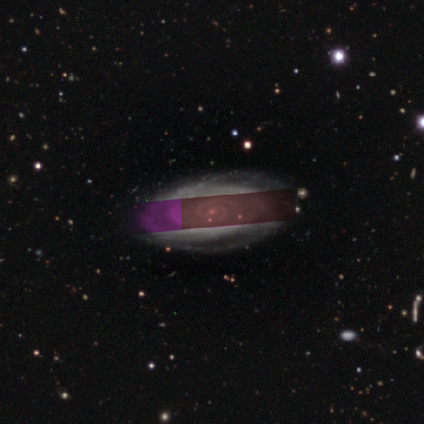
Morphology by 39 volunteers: Smooth or featured? 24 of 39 (62%) said featured or disk. Edge-on disk? 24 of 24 (100%) said no. Bar? 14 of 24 (58%) said no. Spiral arms? 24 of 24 (100%) said yes. Spiral winding? 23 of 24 (96%) said tight. Spiral arm count? 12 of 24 (50%) said 2. Bulge size? 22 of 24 (92%) said small. Merging? 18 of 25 (72%) said none.